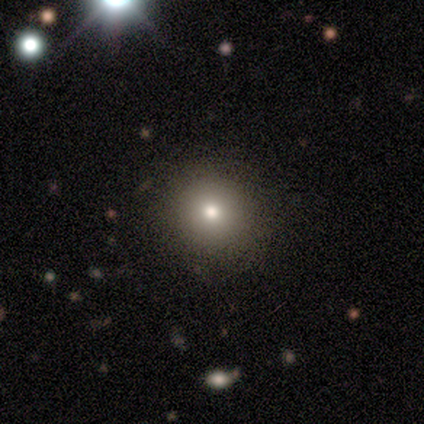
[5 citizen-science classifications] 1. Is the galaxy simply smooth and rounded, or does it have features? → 80% smooth, 20% star or artifact, 0% featured or disk.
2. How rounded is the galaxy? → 100% round, 0% in between, 0% cigar-shaped.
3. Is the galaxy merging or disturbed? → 100% none, 0% minor disturbance, 0% major disturbance, 0% merger.